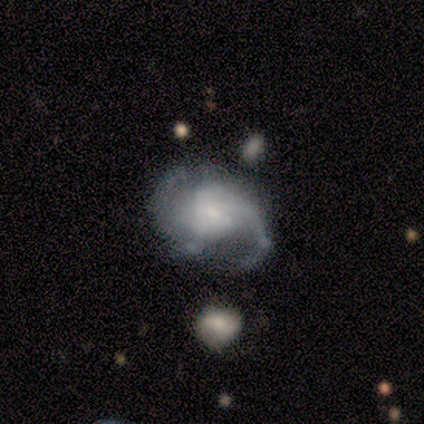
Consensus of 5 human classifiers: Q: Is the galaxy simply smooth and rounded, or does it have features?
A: featured or disk — 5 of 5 (100%).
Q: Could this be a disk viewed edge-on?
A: no — 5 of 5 (100%).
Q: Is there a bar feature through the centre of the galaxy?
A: weak — 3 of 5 (60%).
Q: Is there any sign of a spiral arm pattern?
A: yes — 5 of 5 (100%).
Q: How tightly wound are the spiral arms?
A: loose — 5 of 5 (100%).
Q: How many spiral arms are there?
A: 2 — 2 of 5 (40%).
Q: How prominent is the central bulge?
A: small — 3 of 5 (60%).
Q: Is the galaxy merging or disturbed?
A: minor disturbance — 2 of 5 (40%).